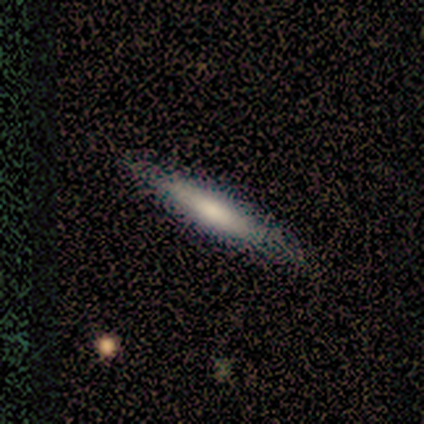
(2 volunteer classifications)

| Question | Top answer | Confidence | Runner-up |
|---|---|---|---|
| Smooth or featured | smooth | 100% | — |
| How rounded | cigar-shaped | 100% | — |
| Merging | none | 100% | — |